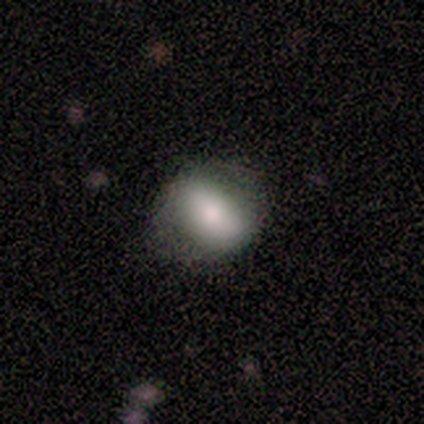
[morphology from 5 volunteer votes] smooth_or_featured: smooth (p=0.40) [tied with: featured or disk p=0.40]
how_rounded: round (p=0.50) [tied with: in between p=0.50]
merging: none (p=1.00)